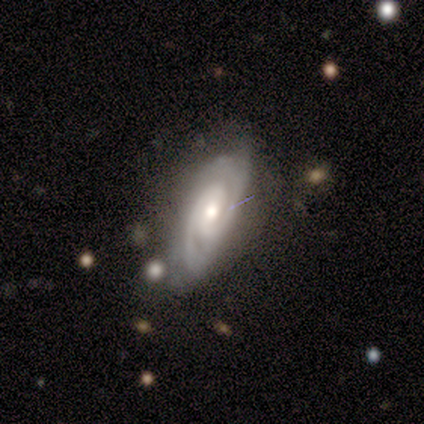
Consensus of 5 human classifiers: smooth_or_featured: featured or disk (p=1.00)
disk_edge_on: no (p=1.00)
bar: weak (p=0.80) [alt: no p=0.20]
has_spiral_arms: yes (p=1.00)
spiral_winding: tight (p=0.40) [tied with: medium p=0.40]
spiral_arm_count: 2 (p=0.80) [alt: 3 p=0.20]
bulge_size: moderate (p=1.00)
merging: none (p=0.60) [alt: minor disturbance p=0.40]